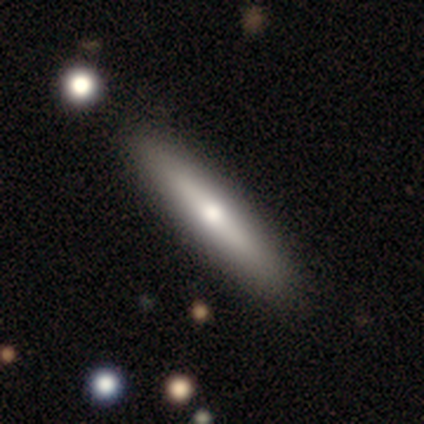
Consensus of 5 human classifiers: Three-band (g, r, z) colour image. It shows a featured or disk galaxy (60%) viewed edge-on (100%) with a rounded central bulge (67%). Merging: none (80%).